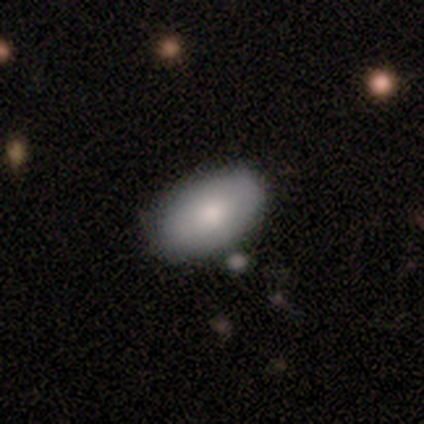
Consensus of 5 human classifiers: smooth_or_featured: smooth (p=0.60) [alt: featured or disk p=0.40]
how_rounded: in between (p=1.00)
merging: none (p=1.00)